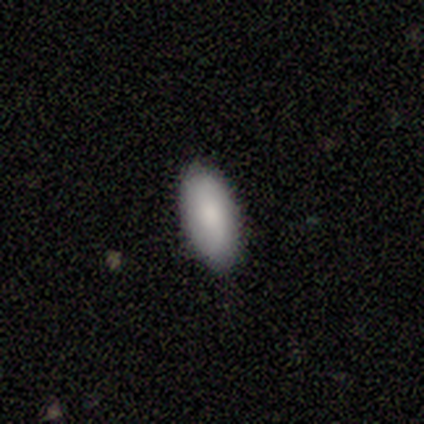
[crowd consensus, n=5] smooth_or_featured: smooth (p=1.00)
how_rounded: in between (p=0.80) [alt: cigar-shaped p=0.20]
merging: none (p=1.00)